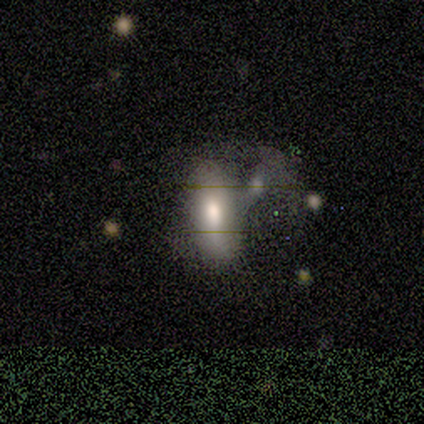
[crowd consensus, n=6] This is likely a smooth galaxy (67%). How rounded: likely in between (75%). Merging: likely none (60%).